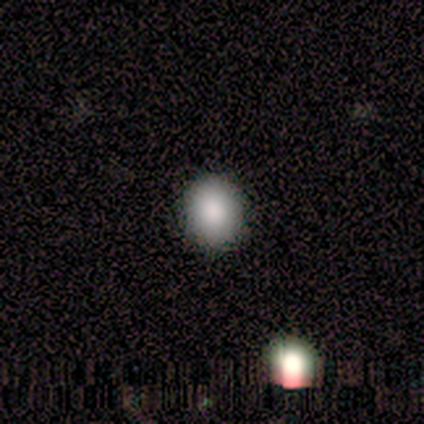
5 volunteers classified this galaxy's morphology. smooth-or-featured: smooth: 80% | star or artifact: 20% | featured or disk: 0%
  how-rounded: round: 75% | in between: 25% | cigar-shaped: 0%
  merging: none: 75% | major disturbance: 25% | minor disturbance: 0% | merger: 0%